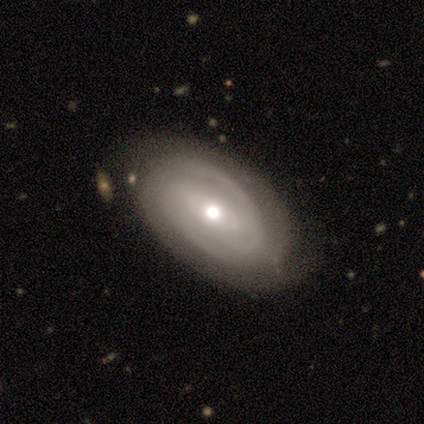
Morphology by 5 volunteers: Q: Smooth or featured?
A: featured or disk (80%); runner-up: smooth (20%)
Q: Edge-on disk?
A: no (100%)
Q: Bar?
A: weak (50%); tied with: no (50%)
Q: Spiral arms?
A: yes (100%)
Q: Spiral winding?
A: tight (100%)
Q: Spiral arm count?
A: 2 (50%); runner-up: 4 (25%)
Q: Bulge size?
A: moderate (100%)
Q: Merging?
A: none (40%); tied with: minor disturbance (40%)